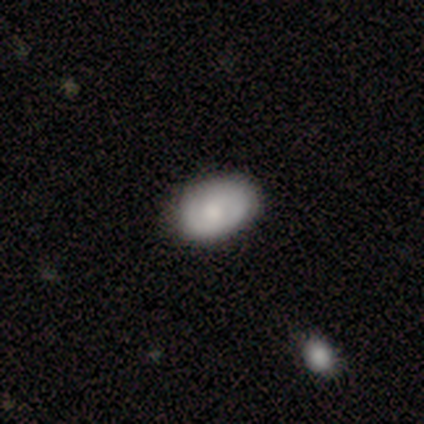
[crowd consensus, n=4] Overall: smooth (75%). How rounded: in between (67%; round 33%). Merging: none (50%; minor disturbance 25%).